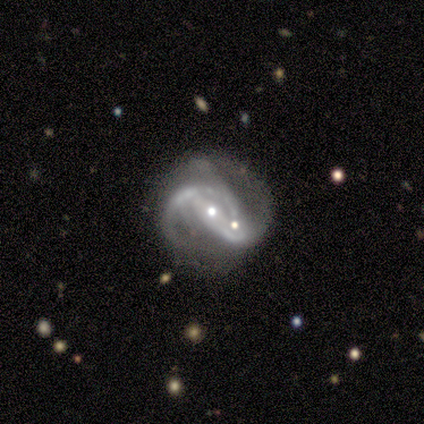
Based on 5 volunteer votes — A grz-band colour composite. It shows a featured or disk galaxy (80%) with no bar (50%), 2 (50%) tight (50%, tied with medium) spiral arms (100%) and a small central bulge (75%). Merging: merger (80%).